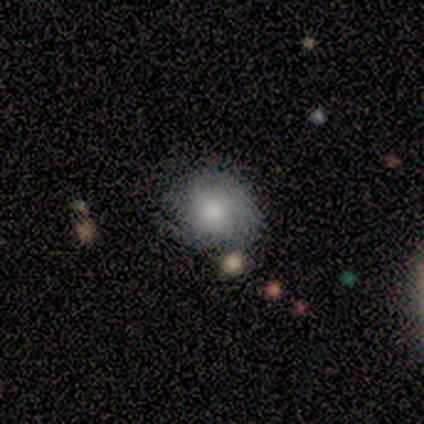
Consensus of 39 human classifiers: Morphology: type=smooth (64%); roundness=round (72%); merging=none (71%).